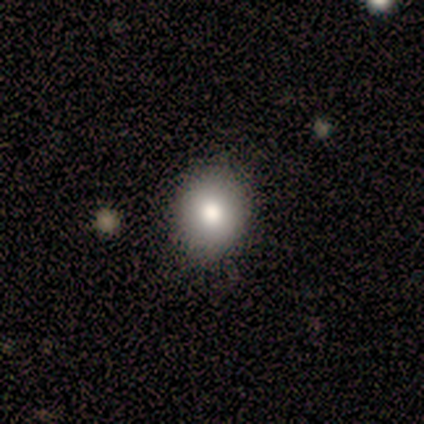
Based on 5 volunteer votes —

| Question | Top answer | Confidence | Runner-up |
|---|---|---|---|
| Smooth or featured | smooth | 80% | star or artifact (20%) |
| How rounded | in between | 100% | — |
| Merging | none | 100% | — |